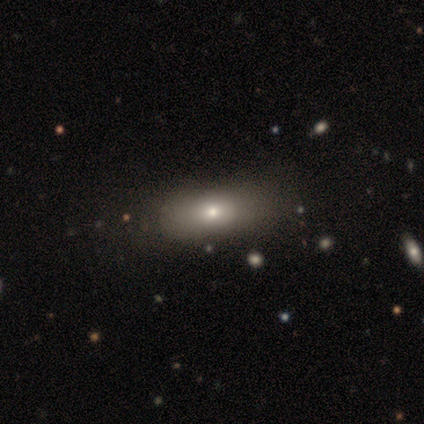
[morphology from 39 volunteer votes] type=smooth (67%); roundness=in between (88%); merging=none (50%).